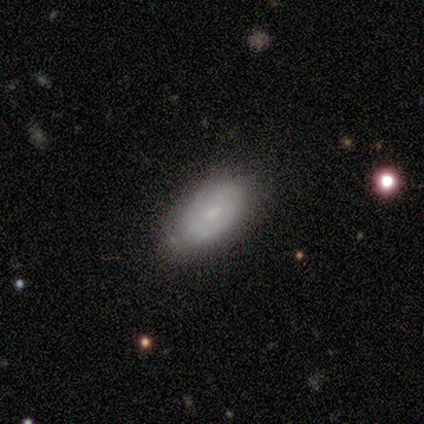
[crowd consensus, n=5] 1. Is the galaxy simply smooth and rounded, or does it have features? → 80% smooth, 20% featured or disk, 0% star or artifact.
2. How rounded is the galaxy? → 100% in between, 0% round, 0% cigar-shaped.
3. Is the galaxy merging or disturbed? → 100% none, 0% minor disturbance, 0% major disturbance, 0% merger.